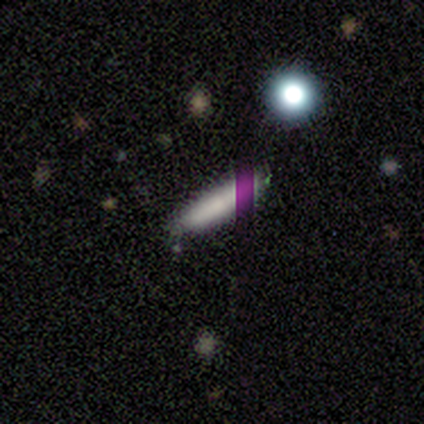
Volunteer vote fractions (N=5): smooth_or_featured: smooth (p=0.80) [alt: featured or disk p=0.20]
how_rounded: cigar-shaped (p=0.75) [alt: in between p=0.25]
merging: none (p=0.80) [alt: minor disturbance p=0.20]